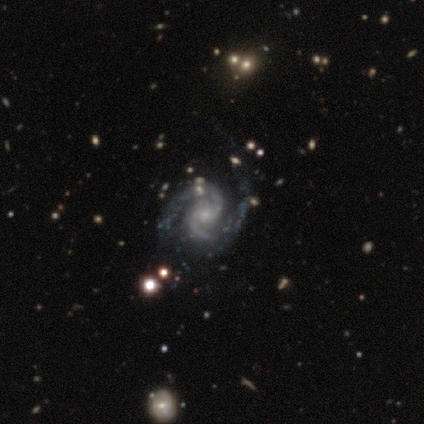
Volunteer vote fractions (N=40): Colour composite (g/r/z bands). It shows a featured or disk galaxy (100%) with no bar (70%), 2 (98%) medium (45%) spiral arms (100%) and a small central bulge (60%). Merging: none (55%).